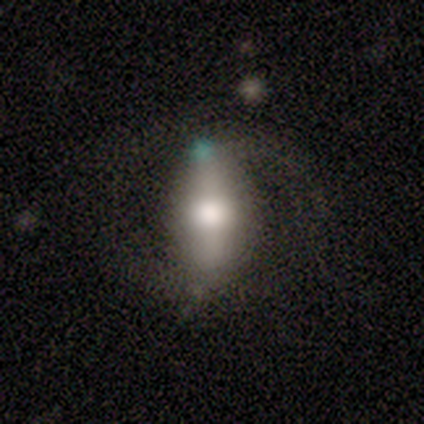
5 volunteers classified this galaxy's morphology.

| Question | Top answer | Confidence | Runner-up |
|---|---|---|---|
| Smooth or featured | featured or disk | 100% | — |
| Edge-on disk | no | 80% | yes (20%) |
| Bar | strong | 50% | weak (25%) |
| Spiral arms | yes | 50% | tied: no (50%) |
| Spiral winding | medium | 100% | — |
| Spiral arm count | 2 | 100% | — |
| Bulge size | large | 75% | moderate (25%) |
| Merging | none | 80% | minor disturbance (20%) |